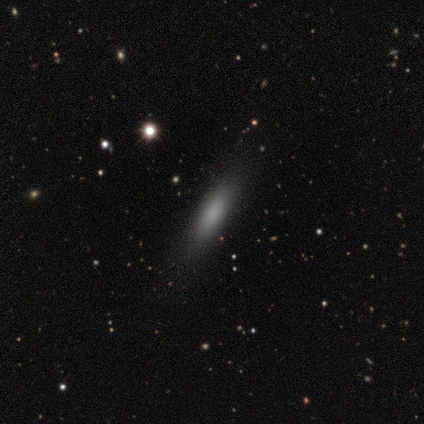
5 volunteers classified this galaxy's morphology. type=smooth (100%); roundness=in between (60%); merging=none (100%).